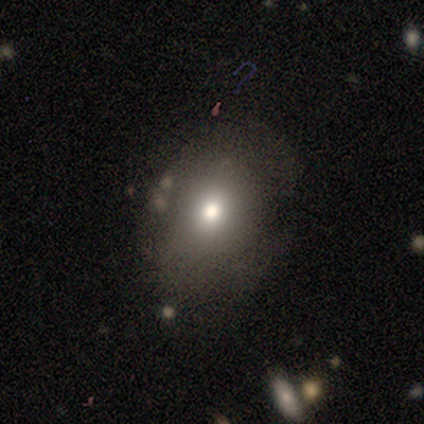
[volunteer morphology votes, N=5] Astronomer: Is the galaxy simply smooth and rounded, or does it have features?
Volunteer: smooth — 60% (runner-up: star or artifact, 40%).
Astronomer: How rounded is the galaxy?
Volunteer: in between — 67%.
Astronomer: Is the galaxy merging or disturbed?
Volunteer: none — 67%.